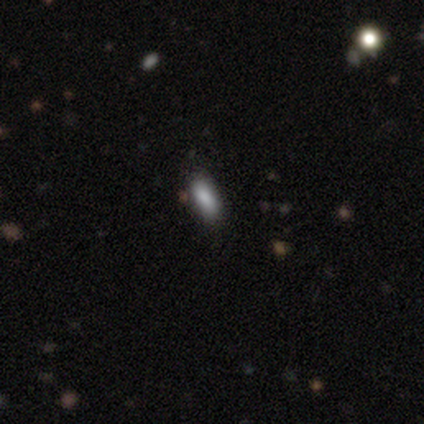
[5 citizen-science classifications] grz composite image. It shows a smooth galaxy with no disk features (80%) that is in between round and cigar-shaped (75%). Merging: none (75%).